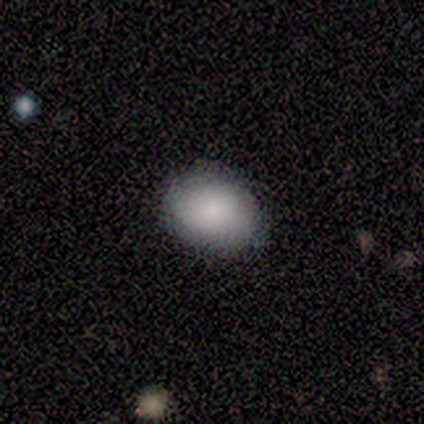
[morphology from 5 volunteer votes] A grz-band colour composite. It shows a smooth galaxy with no disk features (80%) that is in between round and cigar-shaped (75%). Merging: none (60%).